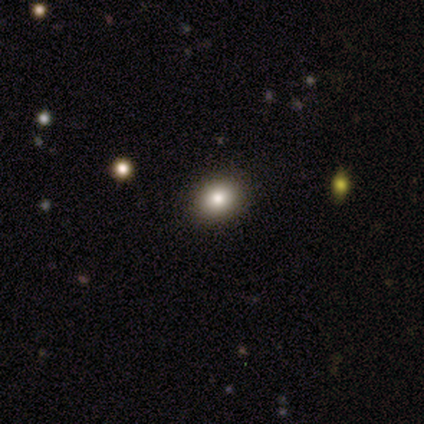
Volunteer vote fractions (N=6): Morphology: type=smooth (100%); roundness=round (67%); merging=none (100%).